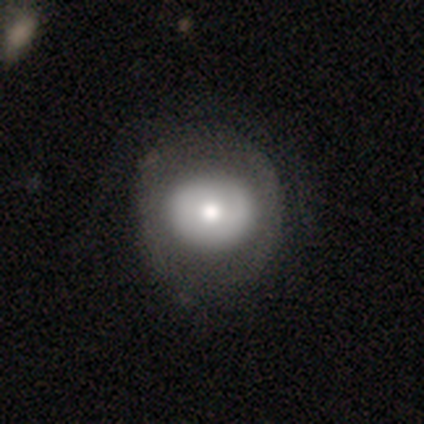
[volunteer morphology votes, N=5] Overall: smooth (60%; featured or disk 40%). How rounded: round (67%; in between 33%). Merging: none (60%; minor disturbance 20%).